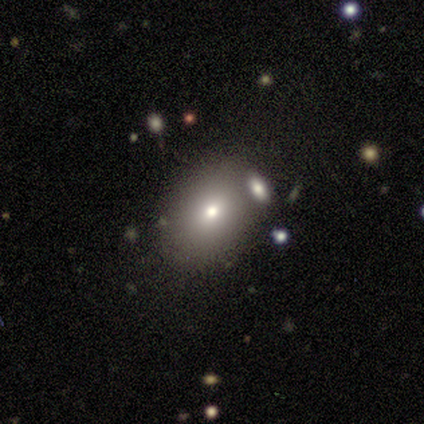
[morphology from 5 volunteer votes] A smooth galaxy with no disk features (60%) that is round (67%). Merging: none (80%).